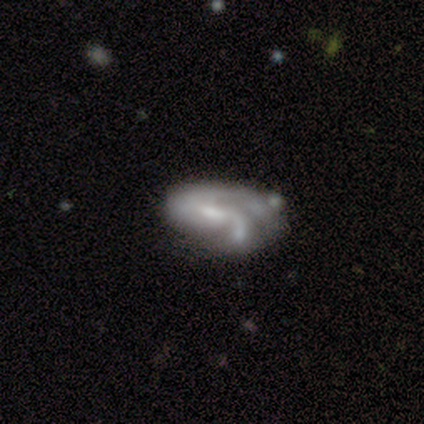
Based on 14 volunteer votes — Q: Smooth or featured?
A: featured or disk (57%); runner-up: smooth (29%)
Q: Edge-on disk?
A: no (100%)
Q: Bar?
A: weak (38%); tied with: no (38%)
Q: Spiral arms?
A: yes (88%); runner-up: no (12%)
Q: Spiral winding?
A: tight (43%); runner-up: medium (29%)
Q: Spiral arm count?
A: 2 (43%); runner-up: 1 (29%)
Q: Bulge size?
A: moderate (38%); runner-up: small (25%)
Q: Merging?
A: none (42%); runner-up: major disturbance (33%)